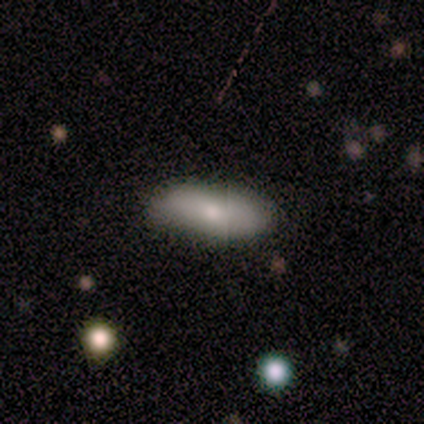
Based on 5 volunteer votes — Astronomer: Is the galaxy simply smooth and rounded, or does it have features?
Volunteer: smooth — 40%, tied with featured or disk at 40%.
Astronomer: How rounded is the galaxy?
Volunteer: round — 50%, tied with cigar-shaped at 50%.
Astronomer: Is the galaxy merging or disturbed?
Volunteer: none — 75%.